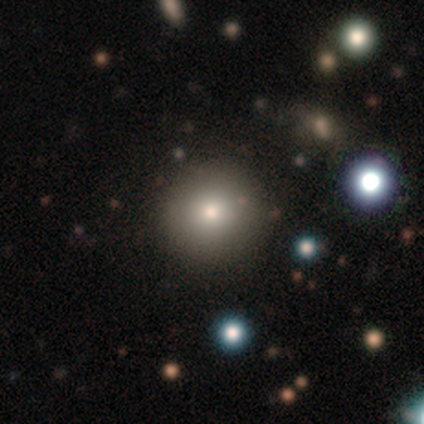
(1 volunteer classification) A smooth galaxy with no disk features (100%) that is round (100%).

Vote fractions:
- Smooth or featured? smooth: 100% / featured or disk: 0% / star or artifact: 0%
- How rounded? round: 100% / in between: 0% / cigar-shaped: 0%
- Merging? none: 100% / minor disturbance: 0% / major disturbance: 0% / merger: 0%